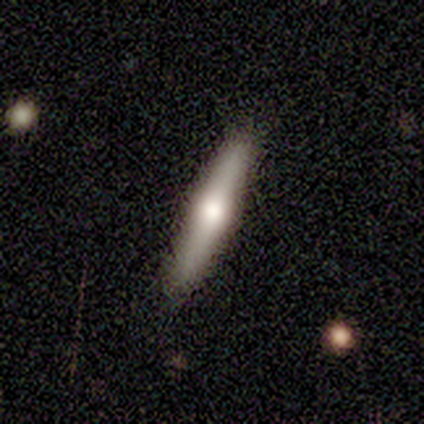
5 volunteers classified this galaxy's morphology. A featured or disk galaxy (60%) viewed edge-on (100%) with a rounded central bulge (100%).

Vote fractions:
- Smooth or featured? featured or disk: 60% / smooth: 40% / star or artifact: 0%
- Edge-on disk? yes: 100% / no: 0%
- Edge-on bulge? rounded: 100% / boxy: 0% / none: 0%
- Merging? none: 60% / minor disturbance: 40% / major disturbance: 0% / merger: 0%